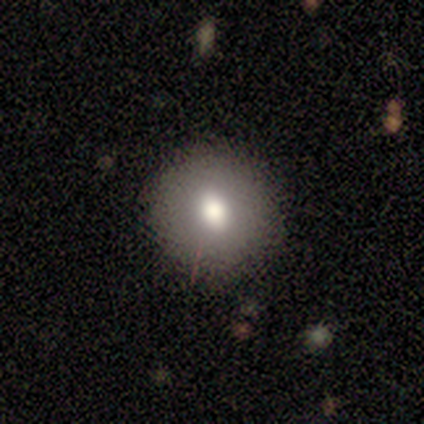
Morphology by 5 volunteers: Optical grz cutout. It shows a smooth galaxy with no disk features (80%) that is round (75%). Merging: none (75%).